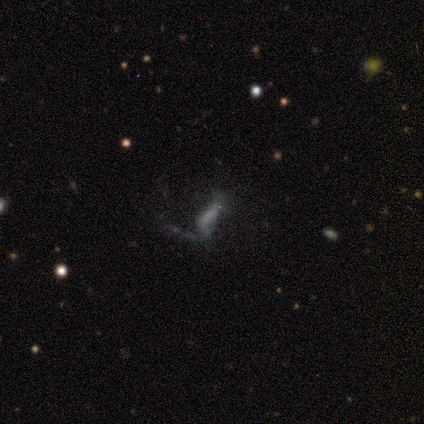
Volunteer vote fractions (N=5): Smooth or featured? smooth (40%, tied with featured or disk)
How rounded? cigar-shaped (100%)
Merging? none (50%)